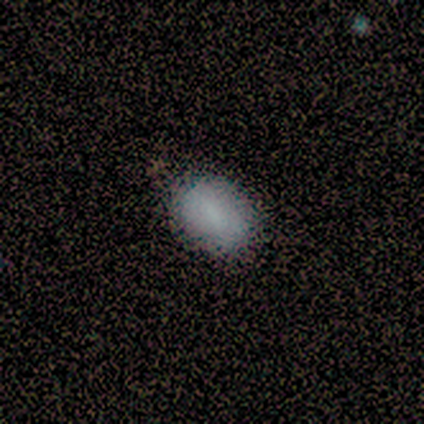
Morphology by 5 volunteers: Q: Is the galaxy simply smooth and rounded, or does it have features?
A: smooth — 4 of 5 (80%).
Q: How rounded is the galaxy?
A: in between — 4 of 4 (100%).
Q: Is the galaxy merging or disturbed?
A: none — 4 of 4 (100%).